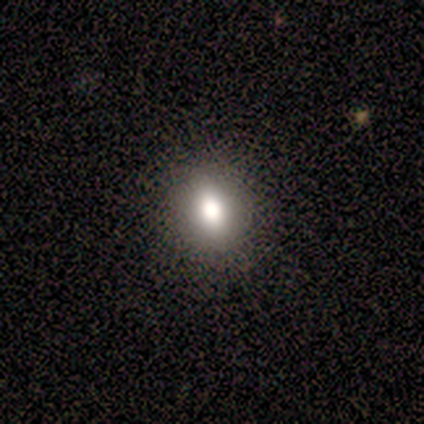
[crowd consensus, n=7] smooth 86%, star or artifact 14%, featured or disk 0%. Down the decision tree: how rounded — in between (50%); merging — none (100%).